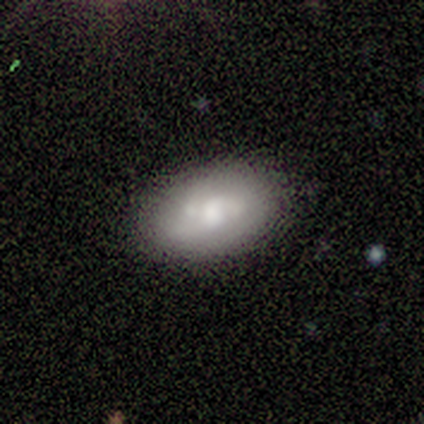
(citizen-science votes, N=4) This is likely a smooth galaxy (75%). How rounded: clearly in between (100%). Merging: likely none (75%).